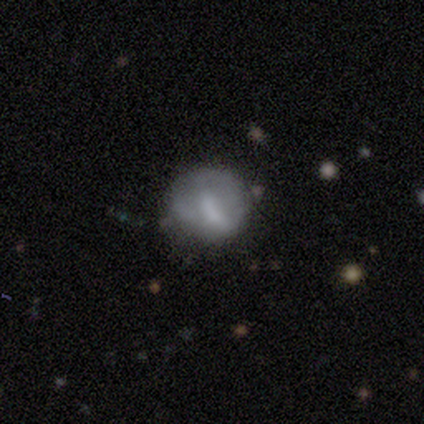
Q: Smooth or featured?
A: smooth (51%); runner-up: featured or disk (43%)
Q: How rounded?
A: round (95%); runner-up: in between (5%)
Q: Merging?
A: none (49%); runner-up: minor disturbance (31%)